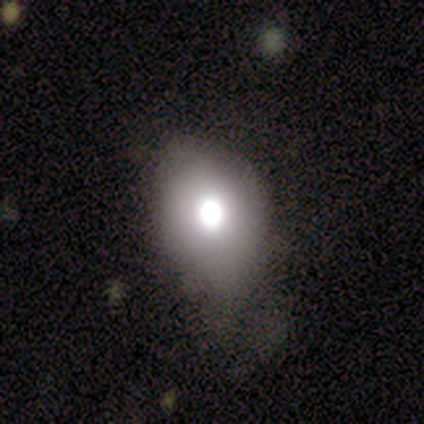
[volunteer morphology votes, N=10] Smooth or featured?
  - smooth: 80% *
  - featured or disk: 10%
  - star or artifact: 10%
How rounded?
  - in between: 62% *
  - round: 38%
  - cigar-shaped: 0%
Merging?
  - none: 67% *
  - minor disturbance: 22%
  - major disturbance: 11%
  - merger: 0%